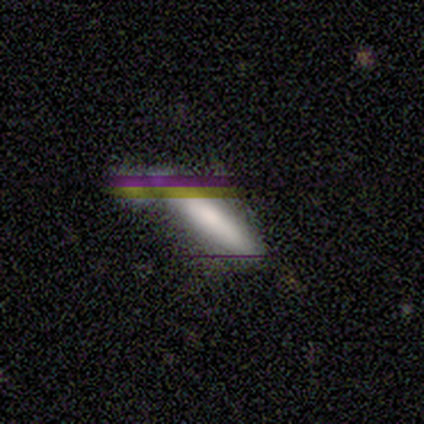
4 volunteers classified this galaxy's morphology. Overall: smooth (50%, tied with featured or disk). How rounded: cigar-shaped (100%). Merging: none (50%; minor disturbance 25%).